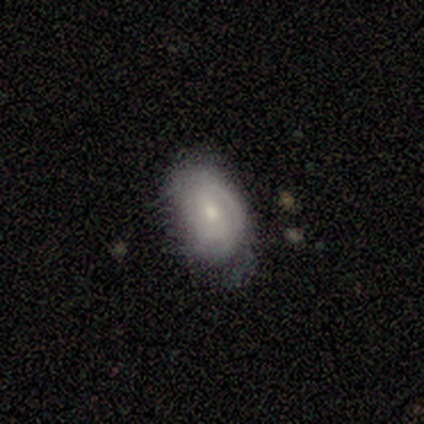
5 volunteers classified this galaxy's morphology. A featured or disk galaxy (60%) with a weak bar (100%), 2 (67%) medium (67%) spiral arms (100%) and a moderate central bulge (100%). Merging: minor disturbance (60%).